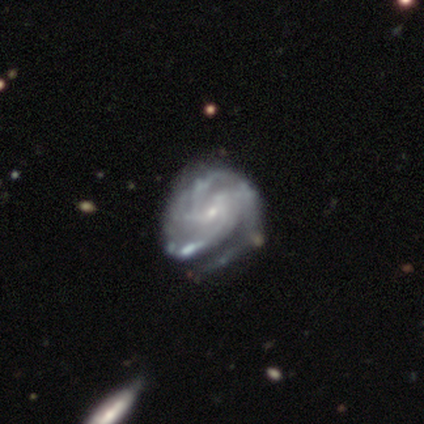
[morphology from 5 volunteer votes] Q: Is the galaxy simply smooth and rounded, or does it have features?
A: featured or disk — 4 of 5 (80%).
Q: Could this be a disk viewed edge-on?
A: no — 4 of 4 (100%).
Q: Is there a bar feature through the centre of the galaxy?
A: no — 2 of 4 (50%).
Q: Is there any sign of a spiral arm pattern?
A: yes — 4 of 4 (100%).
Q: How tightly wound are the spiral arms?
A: tight — 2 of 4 (50%).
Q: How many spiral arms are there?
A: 1 — 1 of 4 (25%, tied with 3, more than 4 and can't tell).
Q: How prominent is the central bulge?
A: moderate — 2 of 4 (50%, tied with small).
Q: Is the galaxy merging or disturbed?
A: none — 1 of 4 (25%, tied with minor disturbance, major disturbance and merger).